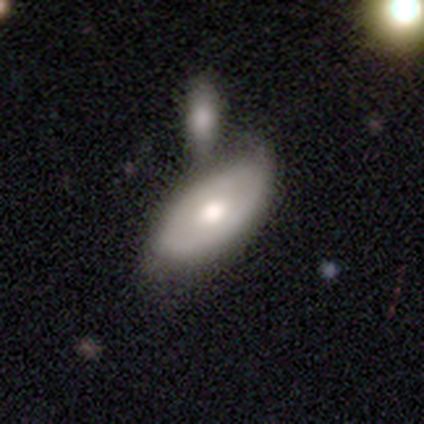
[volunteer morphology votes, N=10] Smooth or featured? smooth (70%)
How rounded? in between (86%)
Merging? merger (40%)